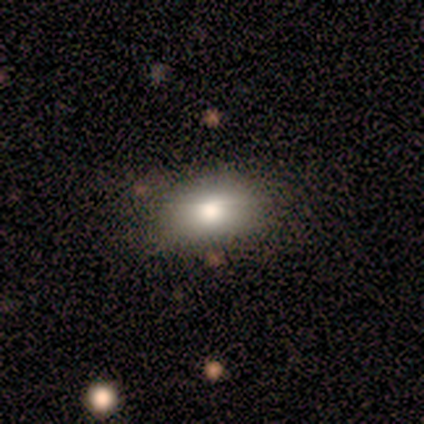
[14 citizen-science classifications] A smooth galaxy with no disk features (93%) that is in between round and cigar-shaped (100%).

Vote fractions:
- Smooth or featured? smooth: 93% / star or artifact: 7% / featured or disk: 0%
- How rounded? in between: 100% / round: 0% / cigar-shaped: 0%
- Merging? none: 85% / minor disturbance: 8% / major disturbance: 8% / merger: 0%